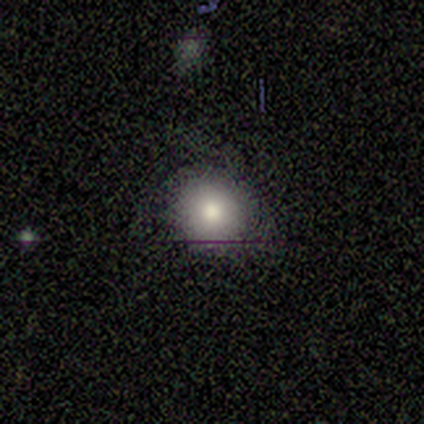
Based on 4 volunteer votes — smooth-or-featured: smooth: 100% | featured or disk: 0% | star or artifact: 0%
  how-rounded: round: 75% | in between: 25% | cigar-shaped: 0%
  merging: none: 75% | minor disturbance: 25% | major disturbance: 0% | merger: 0%